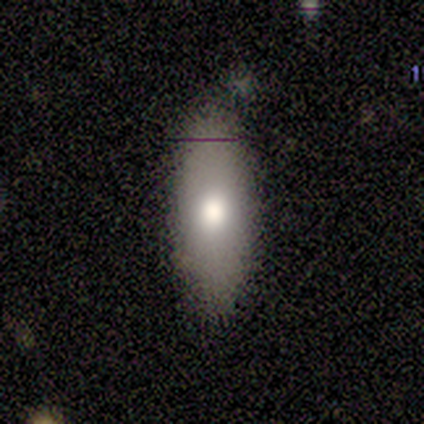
This is clearly a smooth galaxy (80%). How rounded: likely in between (75%). Merging: clearly none (80%).